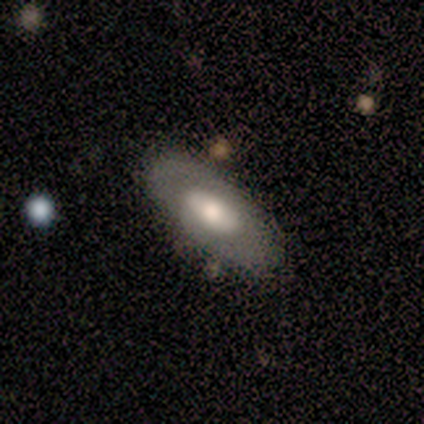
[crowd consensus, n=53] featured or disk 53%, smooth 42%, star or artifact 6%. Down the decision tree: edge-on disk — no (93%); bar — no (65%); spiral arms — no (73%); bulge size — moderate (58%); merging — none (80%).